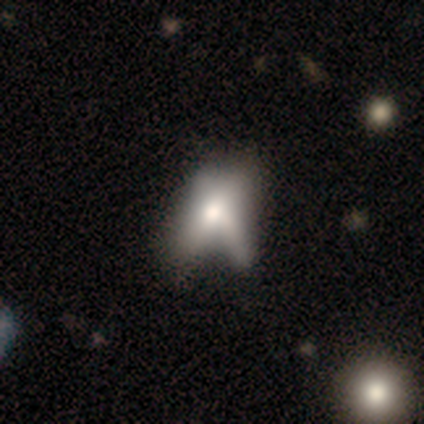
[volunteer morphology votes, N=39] Smooth or featured? smooth (59%)
How rounded? in between (65%)
Merging? none (26%, tied with merger)